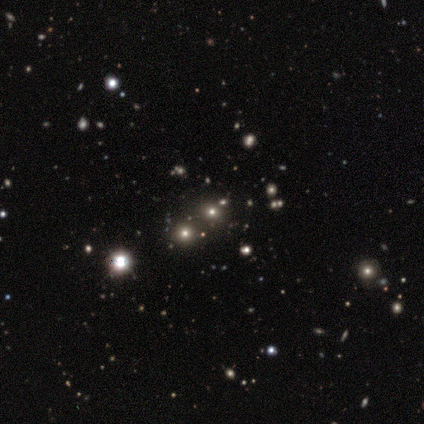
star or artifact 60%, smooth 40%, featured or disk 0%.